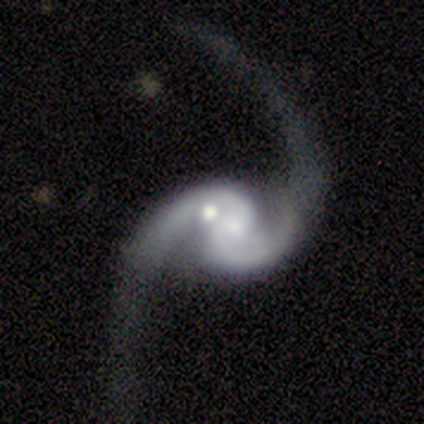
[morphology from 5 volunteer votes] Smooth or featured? 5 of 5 (100%) said featured or disk. Edge-on disk? 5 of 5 (100%) said no. Bar? 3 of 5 (60%) said no. Spiral arms? 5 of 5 (100%) said yes. Spiral winding? 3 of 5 (60%) said loose. Spiral arm count? 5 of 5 (100%) said 2. Bulge size? 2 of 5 (40%, tied with small) said moderate. Merging? 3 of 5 (60%) said none.